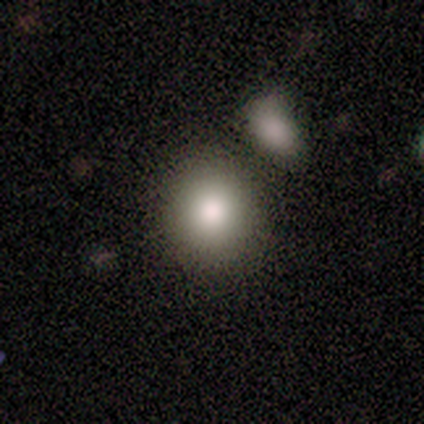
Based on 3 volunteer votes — A smooth galaxy with no disk features (67%) that is round (100%).

Vote fractions:
- Smooth or featured? smooth: 67% / featured or disk: 33% / star or artifact: 0%
- How rounded? round: 100% / in between: 0% / cigar-shaped: 0%
- Merging? none: 100% / minor disturbance: 0% / major disturbance: 0% / merger: 0%